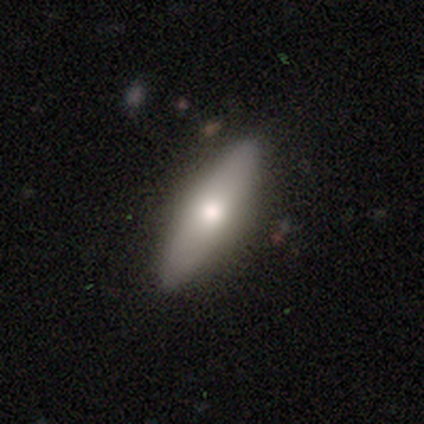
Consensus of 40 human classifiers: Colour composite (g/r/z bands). It shows a smooth galaxy with no disk features (52%) that is cigar-shaped (57%). Merging: none (82%).